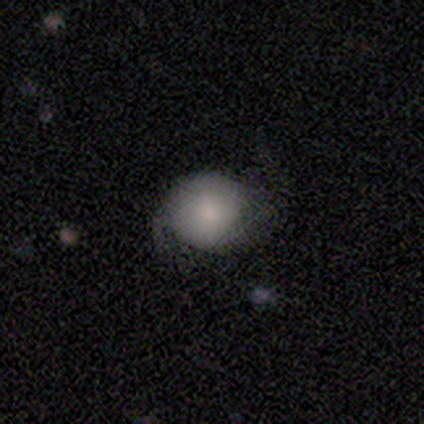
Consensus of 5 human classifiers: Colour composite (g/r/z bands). It shows a smooth galaxy with no disk features (60%) that is round (100%). Merging: none (75%).